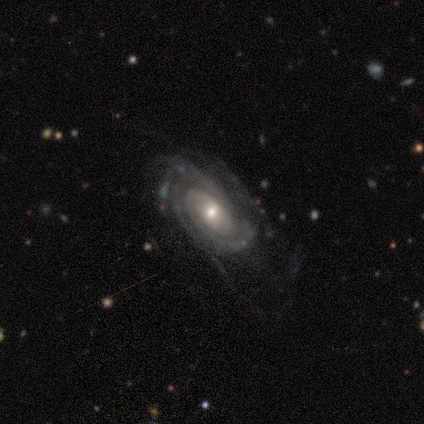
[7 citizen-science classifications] Overall: featured or disk (86%). Edge-on disk: no (100%). Bar: no (83%). Spiral arms: yes (100%). Spiral arm count: 2 (50%; can't tell 33%). Spiral winding: tight (50%, tied with medium). Bulge size: small (67%; moderate 33%). Merging: none (67%; major disturbance 33%).